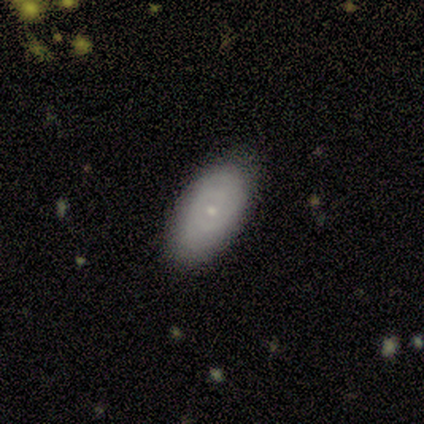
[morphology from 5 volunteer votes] This is clearly a featured or disk galaxy (80%). It is likely not viewed edge-on (75%). Bar: clearly no (100%). Spiral arm pattern: likely no (67%). Central bulge: clearly small (100%). Merging: clearly none (80%).